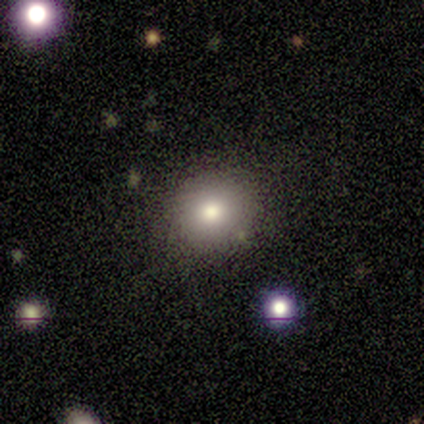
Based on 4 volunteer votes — Smooth or featured: smooth — 50% (featured or disk — 25%)
How rounded: round — 100%
Merging: none — 100%